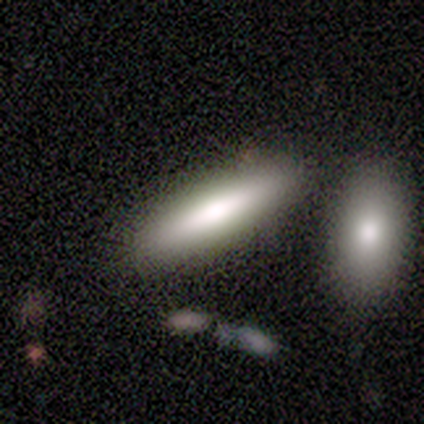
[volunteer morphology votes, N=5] type=smooth (60%); roundness=cigar-shaped (100%); merging=none (80%).